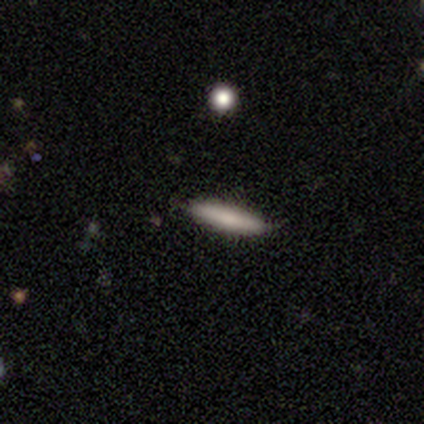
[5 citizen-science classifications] A smooth galaxy with no disk features (60%) that is cigar-shaped (100%).

Vote fractions:
- Smooth or featured? smooth: 60% / featured or disk: 20% / star or artifact: 20%
- How rounded? cigar-shaped: 100% / round: 0% / in between: 0%
- Merging? none: 75% / minor disturbance: 25% / major disturbance: 0% / merger: 0%